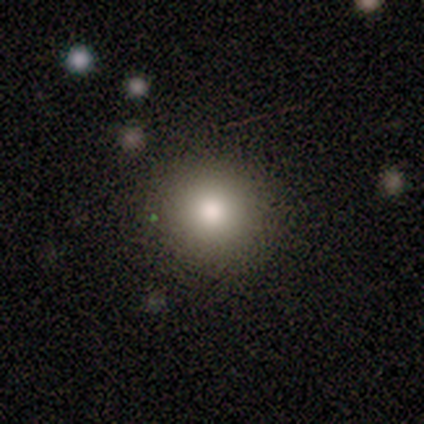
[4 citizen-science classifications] Smooth or featured: smooth — 100%
How rounded: round — 100%
Merging: none — 100%